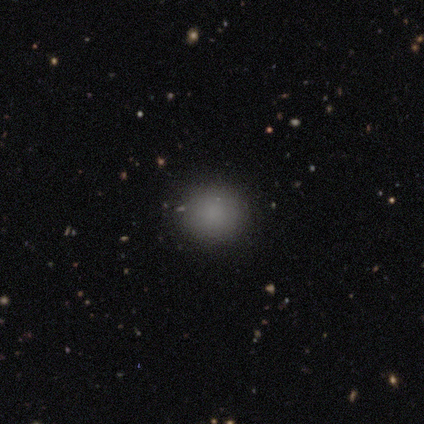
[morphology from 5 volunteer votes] Smooth or featured: smooth — 80% (star or artifact — 20%)
How rounded: round — 100%
Merging: none — 100%